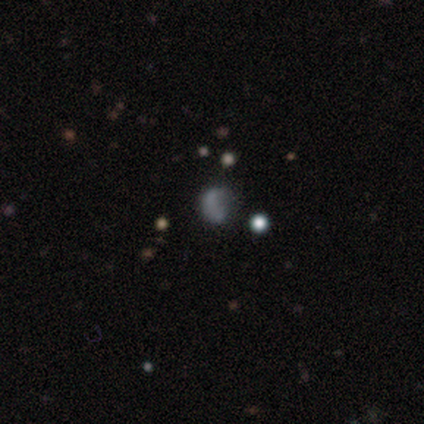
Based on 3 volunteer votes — Smooth or featured? 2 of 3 (67%) said smooth. How rounded? 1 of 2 (50%, tied with in between) said round. Merging? 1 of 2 (50%, tied with merger) said minor disturbance.